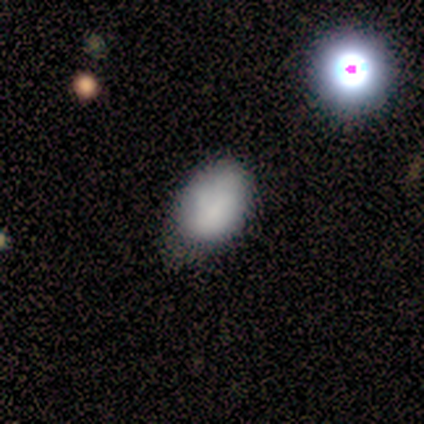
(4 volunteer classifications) Smooth or featured?
  - smooth: 75% *
  - featured or disk: 25%
  - star or artifact: 0%
How rounded?
  - in between: 100% *
  - round: 0%
  - cigar-shaped: 0%
Merging?
  - minor disturbance: 75% *
  - major disturbance: 25%
  - none: 0%
  - merger: 0%